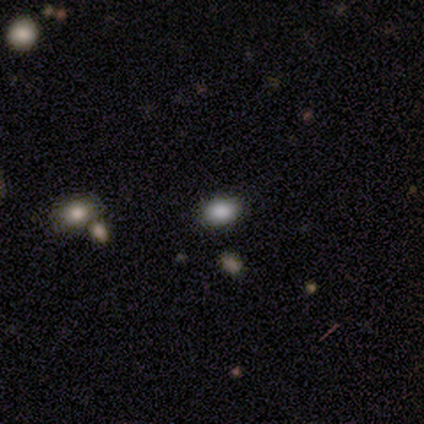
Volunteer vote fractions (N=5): Smooth or featured: smooth — 60% (featured or disk — 40%)
How rounded: in between — 67% (round — 33%)
Merging: none — 80% (minor disturbance — 20%)